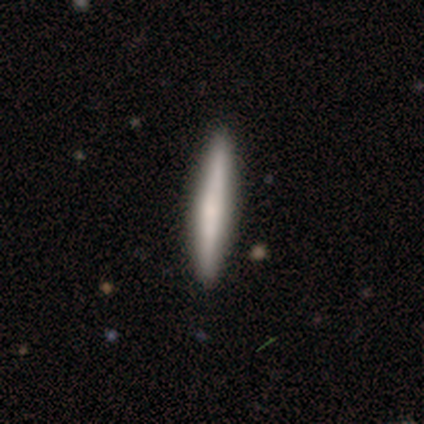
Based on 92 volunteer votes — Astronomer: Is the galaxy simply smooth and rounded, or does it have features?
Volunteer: smooth — 67%.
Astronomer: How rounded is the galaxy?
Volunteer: cigar-shaped — 98%.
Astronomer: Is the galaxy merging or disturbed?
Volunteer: none — 93%.